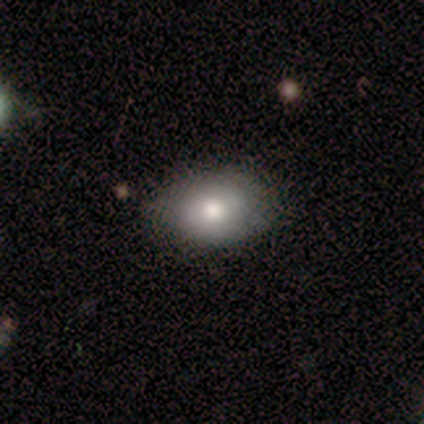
smooth_or_featured: smooth (p=0.57) [alt: star or artifact p=0.29]
how_rounded: in between (p=1.00)
merging: none (p=0.50) [tied with: minor disturbance p=0.50]